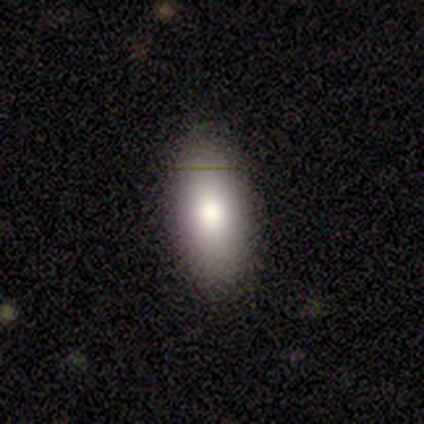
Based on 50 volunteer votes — This is clearly a smooth galaxy (82%). How rounded: clearly in between (88%). Merging: clearly none (96%).